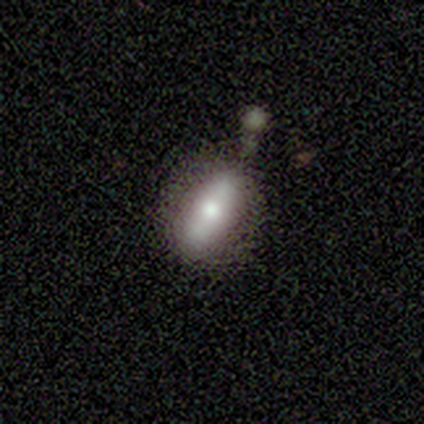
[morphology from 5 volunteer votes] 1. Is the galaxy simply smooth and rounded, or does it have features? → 80% smooth, 20% featured or disk, 0% star or artifact.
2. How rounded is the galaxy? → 100% in between, 0% round, 0% cigar-shaped.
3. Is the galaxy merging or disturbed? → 60% none, 40% minor disturbance, 0% major disturbance, 0% merger.